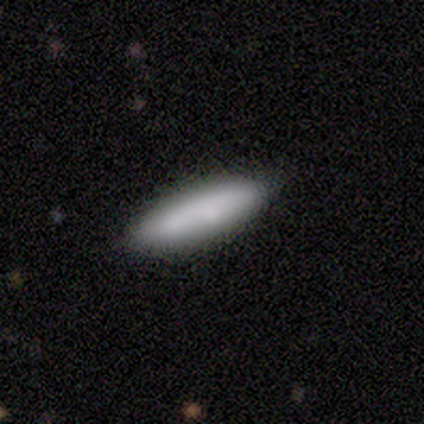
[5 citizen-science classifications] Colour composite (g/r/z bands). It shows a smooth galaxy with no disk features (100%) that is cigar-shaped (100%). Merging: none (100%).